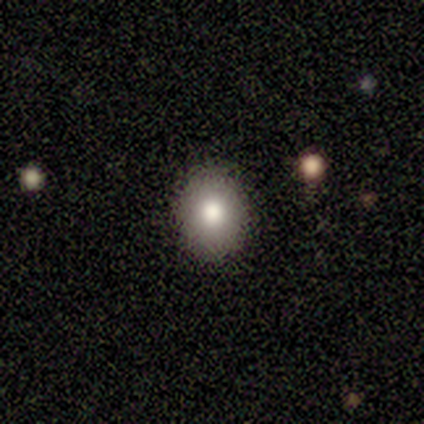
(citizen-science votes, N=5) Smooth or featured?
  - smooth: 80% *
  - star or artifact: 20%
  - featured or disk: 0%
How rounded?
  - round: 75% *
  - in between: 25%
  - cigar-shaped: 0%
Merging?
  - none: 100% *
  - minor disturbance: 0%
  - major disturbance: 0%
  - merger: 0%